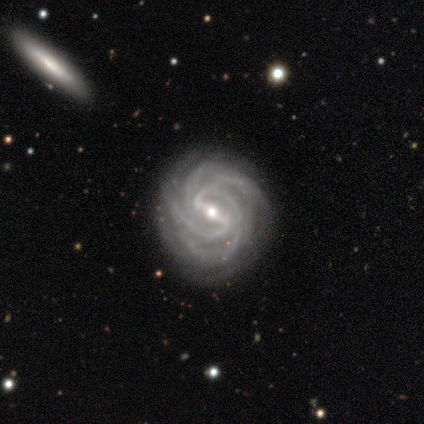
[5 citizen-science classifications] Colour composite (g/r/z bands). It shows a featured or disk galaxy (100%) with a strong bar (60%), 3 (40%, tied with more than 4) medium (60%) spiral arms (100%) and a small central bulge (100%). Merging: none (80%).